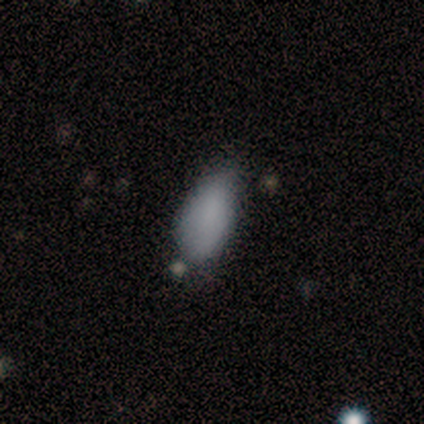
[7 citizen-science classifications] Q: Smooth or featured?
A: smooth (100%)
Q: How rounded?
A: in between (100%)
Q: Merging?
A: none (43%); tied with: minor disturbance (43%)